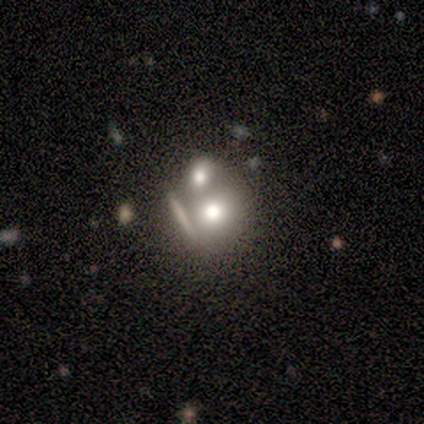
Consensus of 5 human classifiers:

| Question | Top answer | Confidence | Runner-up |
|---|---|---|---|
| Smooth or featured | smooth | 60% | featured or disk (20%) |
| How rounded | in between | 67% | round (33%) |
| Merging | none | 50% | major disturbance (25%) |